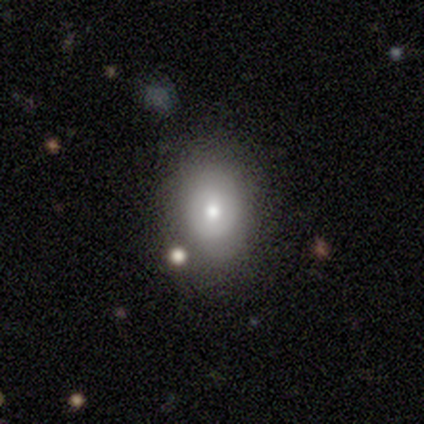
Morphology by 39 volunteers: This appears to be a smooth galaxy with no disk features (64%) that is in between round and cigar-shaped (64%). Merging: none (71%).